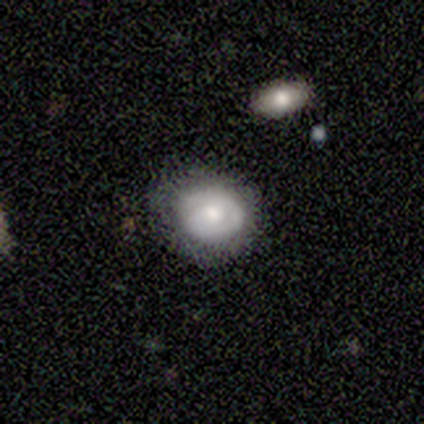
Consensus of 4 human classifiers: smooth 50%, featured or disk 25%, star or artifact 25%. Down the decision tree: how rounded — in between (100%); merging — none (67%).